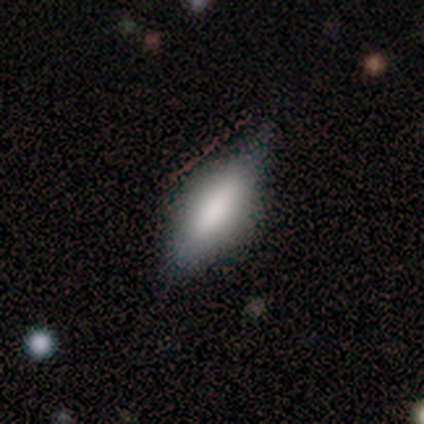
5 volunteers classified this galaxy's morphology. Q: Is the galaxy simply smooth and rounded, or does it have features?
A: featured or disk — 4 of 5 (80%).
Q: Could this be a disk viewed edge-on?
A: yes — 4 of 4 (100%).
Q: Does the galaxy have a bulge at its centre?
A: rounded — 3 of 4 (75%).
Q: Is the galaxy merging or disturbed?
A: none — 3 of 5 (60%).